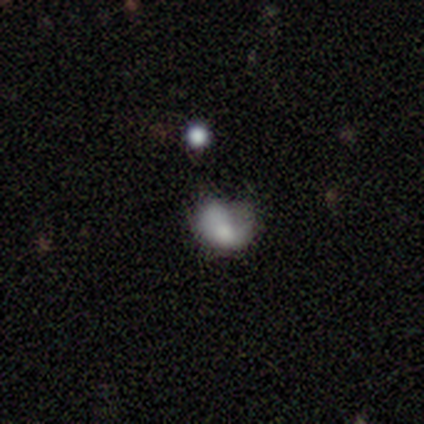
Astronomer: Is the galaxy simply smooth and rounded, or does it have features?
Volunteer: featured or disk — 40%, tied with star or artifact at 40%.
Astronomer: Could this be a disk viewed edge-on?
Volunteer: no — 100%.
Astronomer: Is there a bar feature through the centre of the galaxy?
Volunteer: no — 100%.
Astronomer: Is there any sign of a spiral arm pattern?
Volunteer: yes — 50%, tied with no at 50%.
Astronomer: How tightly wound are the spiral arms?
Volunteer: tight — 100%.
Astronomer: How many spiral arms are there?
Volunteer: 1 — 100%.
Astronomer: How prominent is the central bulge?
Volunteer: moderate — 100%.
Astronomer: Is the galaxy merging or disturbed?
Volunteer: minor disturbance — 67%.